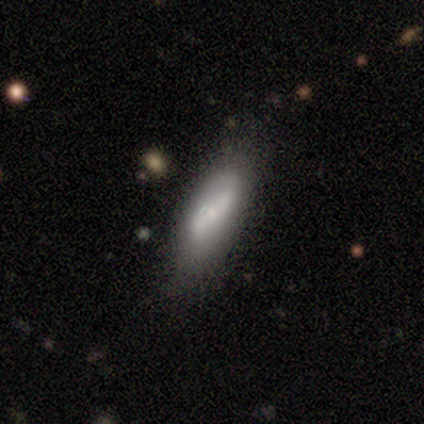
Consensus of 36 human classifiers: Smooth or featured? 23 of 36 (64%) said smooth. How rounded? 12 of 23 (52%) said in between. Merging? 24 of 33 (73%) said none.